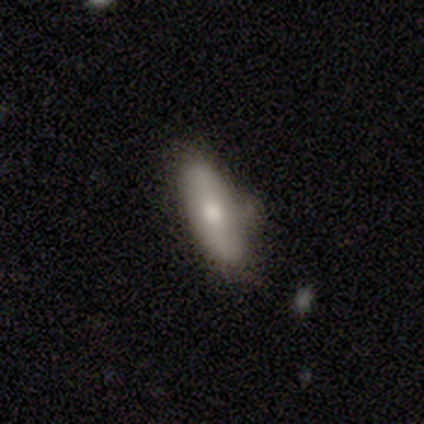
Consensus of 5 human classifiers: Smooth or featured? 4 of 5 (80%) said smooth. How rounded? 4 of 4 (100%) said in between. Merging? 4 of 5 (80%) said none.